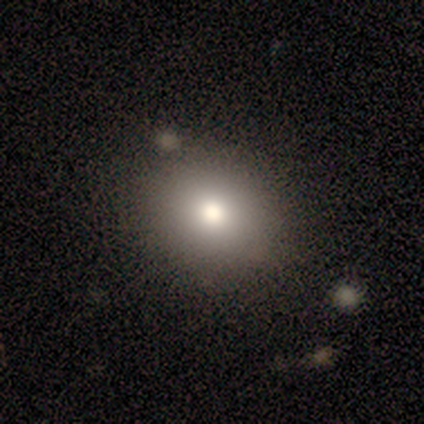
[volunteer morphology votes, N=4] Volunteers were most divided on "how rounded": round: 67%, in between: 33%, cigar-shaped: 0%. More confident: merging — none (100%); smooth or featured — smooth (75%).